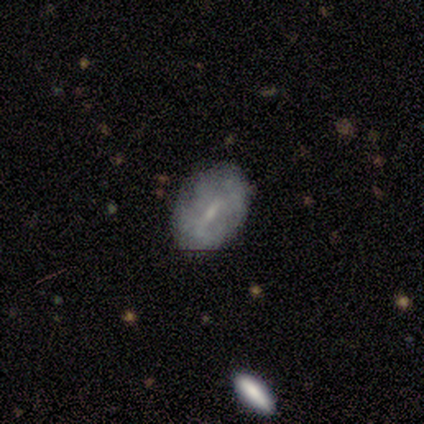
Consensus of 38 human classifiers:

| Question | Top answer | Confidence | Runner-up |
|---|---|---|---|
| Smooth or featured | featured or disk | 58% | smooth (34%) |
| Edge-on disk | no | 91% | yes (9%) |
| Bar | weak | 60% | strong (30%) |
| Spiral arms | no | 70% | yes (30%) |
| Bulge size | small | 80% | moderate (10%) |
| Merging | none | 77% | minor disturbance (14%) |